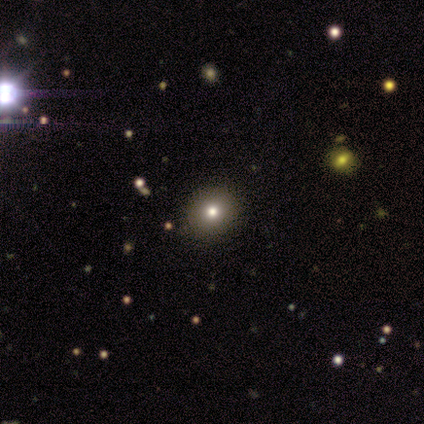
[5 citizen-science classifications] A smooth galaxy with no disk features (80%) that is round (100%). Merging: none (100%).